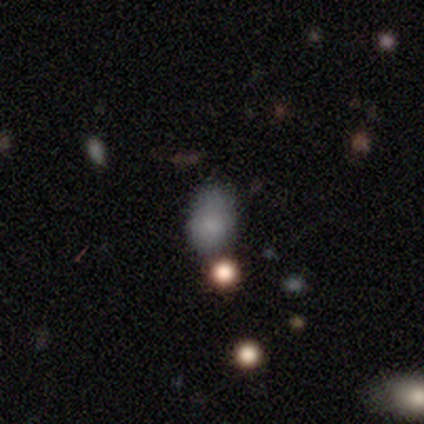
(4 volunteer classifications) smooth-or-featured: smooth: 75% | star or artifact: 25% | featured or disk: 0%
  how-rounded: in between: 100% | round: 0% | cigar-shaped: 0%
  merging: none: 67% | minor disturbance: 33% | major disturbance: 0% | merger: 0%